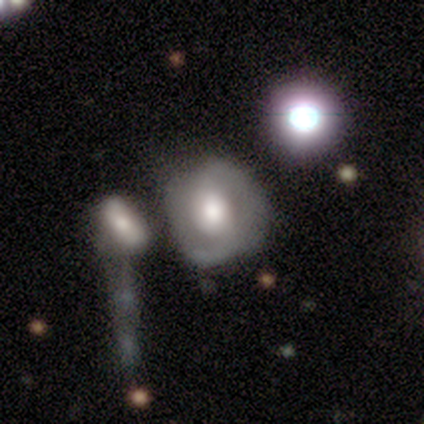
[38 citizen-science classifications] smooth_or_featured: featured or disk (p=0.66) [alt: smooth p=0.29]
disk_edge_on: no (p=1.00)
bar: no (p=0.76) [alt: weak p=0.16]
has_spiral_arms: yes (p=0.68) [alt: no p=0.32]
spiral_winding: tight (p=0.47) [tied with: medium p=0.47]
spiral_arm_count: 2 (p=0.88) [alt: can't tell p=0.12]
bulge_size: large (p=0.48) [alt: moderate p=0.44]
merging: none (p=0.53) [alt: minor disturbance p=0.25]